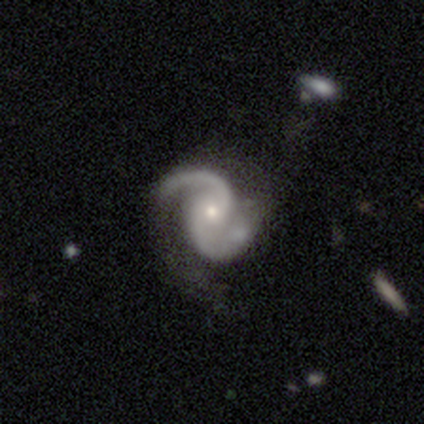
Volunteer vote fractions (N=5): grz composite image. It shows a featured or disk galaxy (100%) with no bar (60%), 2 (100%) medium (80%) spiral arms (100%) and a small central bulge (80%). Merging: none (60%).